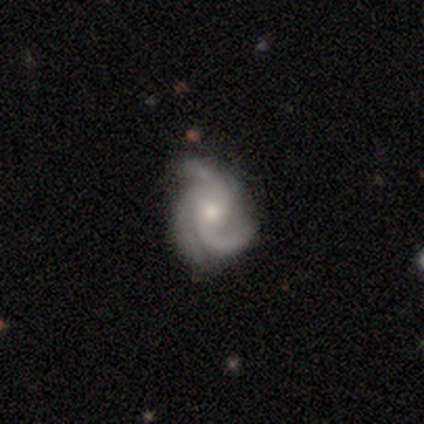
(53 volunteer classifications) Smooth or featured?
  - featured or disk: 94% *
  - smooth: 4%
  - star or artifact: 2%
Edge-on disk?
  - no: 98% *
  - yes: 2%
Bar?
  - no: 73% *
  - weak: 24%
  - strong: 2%
Spiral arms?
  - yes: 100% *
  - no: 0%
Spiral winding?
  - medium: 57% *
  - tight: 35%
  - loose: 8%
Spiral arm count?
  - 3: 86% *
  - 2: 10%
  - 1: 2%
  - can't tell: 2%
  - 4: 0%
  - more than 4: 0%
Bulge size?
  - moderate: 57% *
  - small: 39%
  - large: 4%
  - dominant: 0%
  - none: 0%
Merging?
  - none: 69% *
  - minor disturbance: 27%
  - major disturbance: 4%
  - merger: 0%